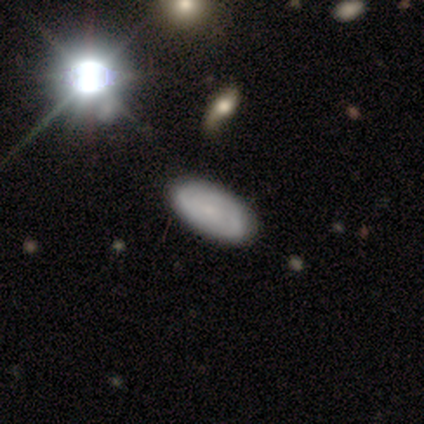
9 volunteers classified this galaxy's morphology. Overall: smooth (56%; featured or disk 33%). How rounded: in between (80%). Merging: none (88%).